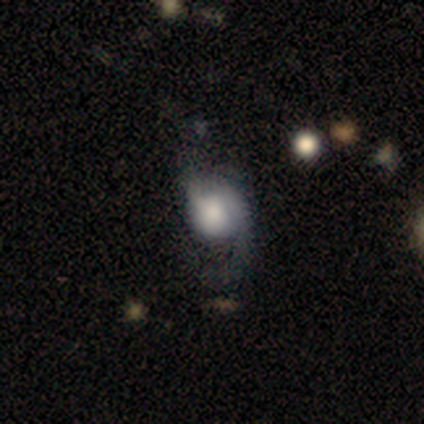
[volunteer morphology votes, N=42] A featured or disk galaxy (64%) with no bar (85%), 2 (45%) loose (90%) spiral arms (77%) and a large central bulge (50%). Merging: none (32%).